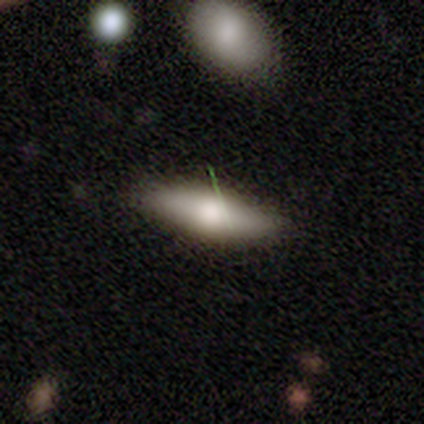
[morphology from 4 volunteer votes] This appears to be a featured or disk galaxy (50%) viewed edge-on (50%, tied with no) with a rounded central bulge (100%). Merging: none (100%).